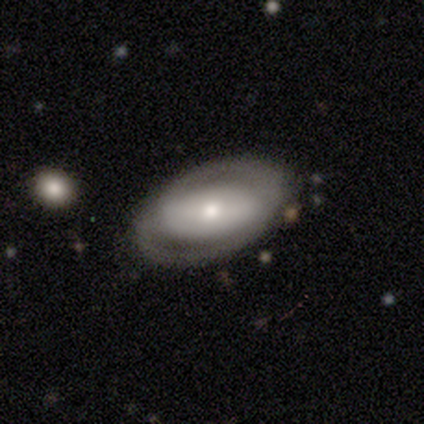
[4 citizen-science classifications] A featured or disk galaxy (75%) with no bar (100%), no spiral arms (67%) and a moderate central bulge (100%). Merging: none (75%).